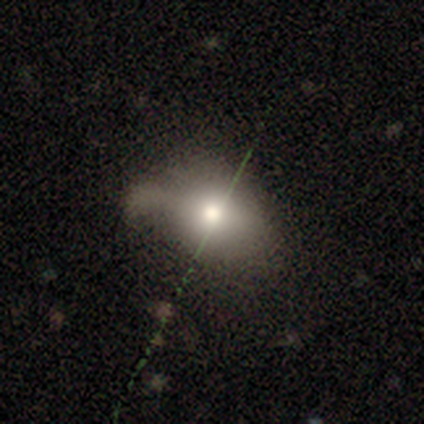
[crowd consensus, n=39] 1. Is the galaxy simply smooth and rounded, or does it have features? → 64% smooth, 21% star or artifact, 15% featured or disk.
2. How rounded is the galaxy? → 60% round, 40% in between, 0% cigar-shaped.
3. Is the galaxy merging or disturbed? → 52% none, 26% minor disturbance, 16% major disturbance, 6% merger.